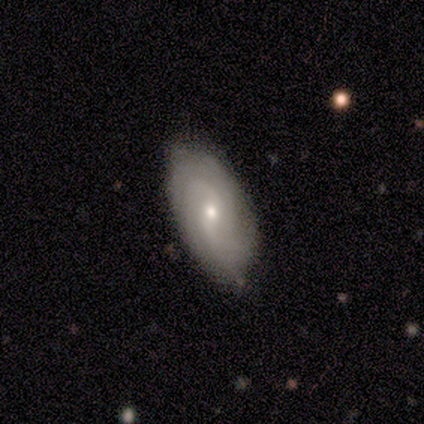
smooth-or-featured: featured or disk: 80% | star or artifact: 20% | smooth: 0%
  disk-edge-on: no: 100% | yes: 0%
    bar: weak: 50% (tied) | no: 50% (tied) | strong: 0%
    has-spiral-arms: yes: 100% | no: 0%
      spiral-winding: tight: 75% | medium: 25% | loose: 0%
      spiral-arm-count: can't tell: 50% | 4: 25% | more than 4: 25% | 1: 0% | 2: 0% | 3: 0%
    bulge-size: moderate: 50% (tied) | small: 50% (tied) | dominant: 0% | large: 0% | none: 0%
  merging: none: 100% | minor disturbance: 0% | major disturbance: 0% | merger: 0%